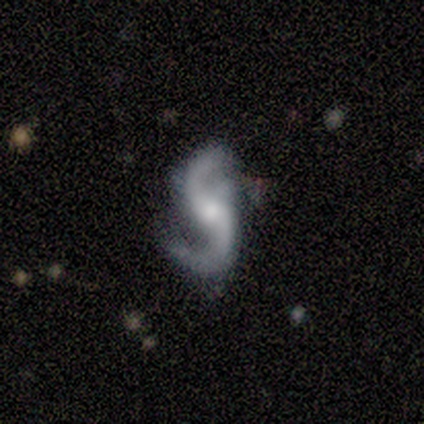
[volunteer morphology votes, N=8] A featured or disk galaxy (100%) with no bar (75%), 2 (100%) loose (88%) spiral arms (100%) and a moderate central bulge (38%, tied with small). Merging: none (62%).